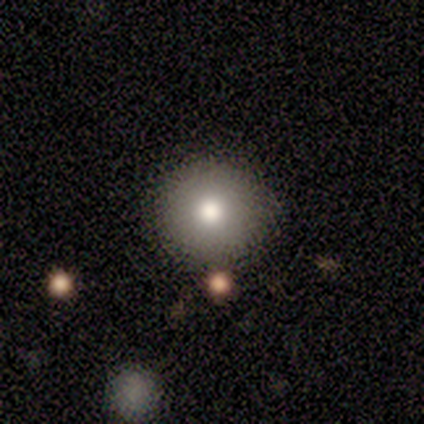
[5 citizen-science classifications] Volunteers were most divided on "smooth or featured": smooth: 80%, featured or disk: 20%, star or artifact: 0%. More confident: how rounded — round (100%); merging — none (100%).